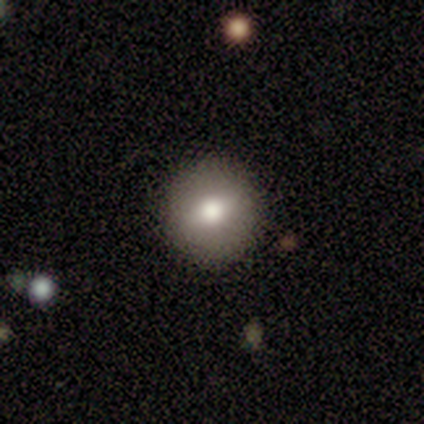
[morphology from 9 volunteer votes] Smooth or featured: smooth — 78% (featured or disk — 22%)
How rounded: round — 100%
Merging: none — 100%